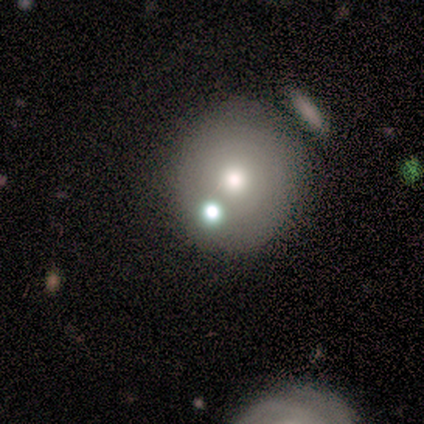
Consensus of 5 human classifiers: Smooth or featured? smooth (80%)
How rounded? round (50%, tied with in between)
Merging? none (40%, tied with minor disturbance)